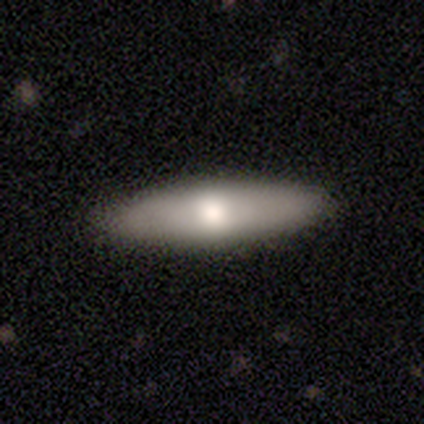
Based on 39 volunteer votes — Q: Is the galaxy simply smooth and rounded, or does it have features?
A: smooth — 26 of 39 (67%).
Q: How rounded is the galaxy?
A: cigar-shaped — 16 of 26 (62%).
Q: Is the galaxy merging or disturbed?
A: none — 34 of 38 (89%).